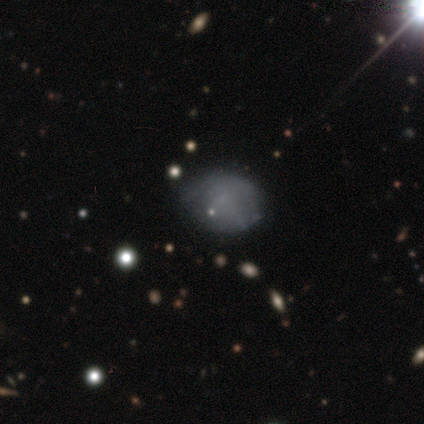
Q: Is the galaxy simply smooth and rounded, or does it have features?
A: smooth — 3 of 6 (50%).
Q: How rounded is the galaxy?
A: round — 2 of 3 (67%).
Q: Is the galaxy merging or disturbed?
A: none — 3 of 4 (75%).